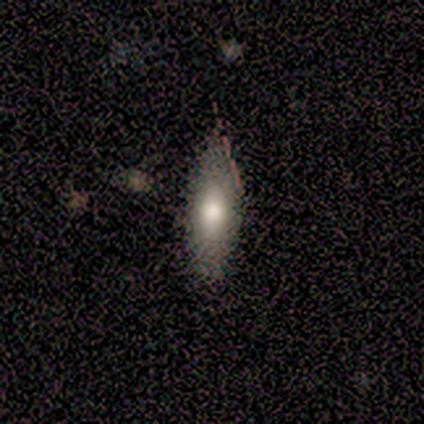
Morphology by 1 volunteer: This is clearly a smooth galaxy (100%). How rounded: clearly in between (100%). Merging: clearly none (100%).